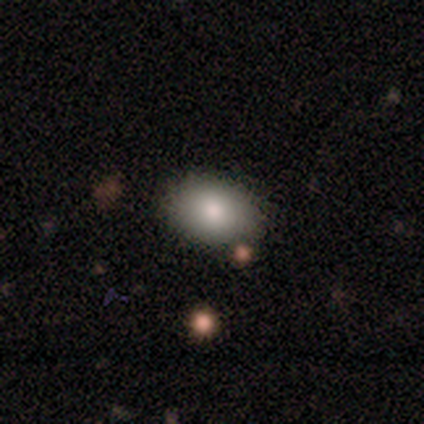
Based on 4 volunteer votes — This is clearly a smooth galaxy (100%). How rounded: clearly in between (100%). Merging: likely none (75%).